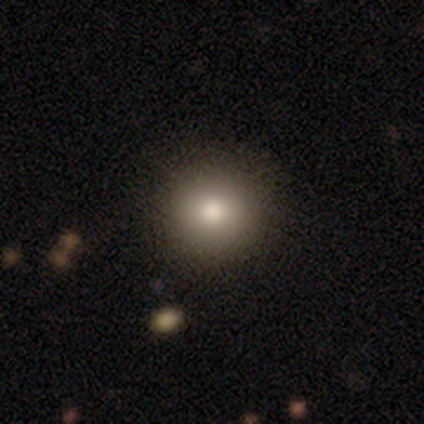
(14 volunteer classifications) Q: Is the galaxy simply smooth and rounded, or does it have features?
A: smooth — 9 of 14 (64%).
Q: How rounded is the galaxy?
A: round — 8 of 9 (89%).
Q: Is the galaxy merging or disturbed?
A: none — 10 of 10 (100%).